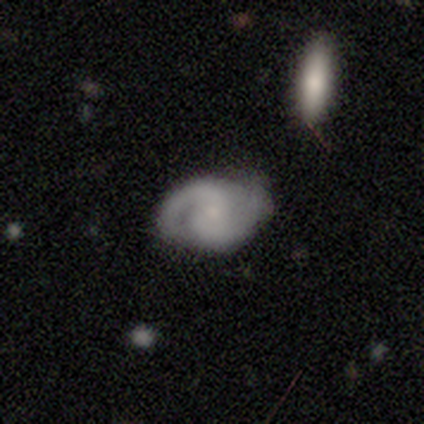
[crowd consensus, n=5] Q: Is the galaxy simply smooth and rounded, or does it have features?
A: featured or disk — 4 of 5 (80%).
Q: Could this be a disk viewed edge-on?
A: no — 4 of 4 (100%).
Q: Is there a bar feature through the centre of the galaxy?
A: no — 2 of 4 (50%).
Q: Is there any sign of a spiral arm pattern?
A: yes — 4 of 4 (100%).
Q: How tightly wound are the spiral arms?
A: medium — 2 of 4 (50%).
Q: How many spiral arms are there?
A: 2 — 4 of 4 (100%).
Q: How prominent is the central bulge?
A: small — 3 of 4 (75%).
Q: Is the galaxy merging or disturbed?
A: none — 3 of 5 (60%).